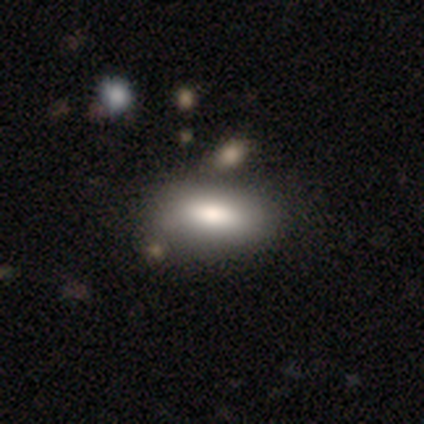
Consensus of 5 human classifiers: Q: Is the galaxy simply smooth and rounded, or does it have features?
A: smooth — 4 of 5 (80%).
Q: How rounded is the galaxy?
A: in between — 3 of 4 (75%).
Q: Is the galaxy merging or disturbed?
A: none — 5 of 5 (100%).